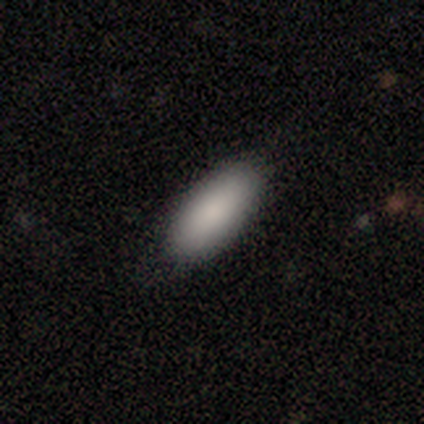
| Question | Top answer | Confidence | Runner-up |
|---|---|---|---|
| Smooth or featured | smooth | 80% | featured or disk (20%) |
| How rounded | in between | 75% | cigar-shaped (25%) |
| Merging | none | 100% | — |